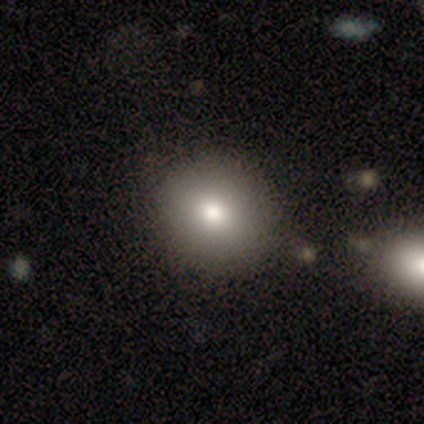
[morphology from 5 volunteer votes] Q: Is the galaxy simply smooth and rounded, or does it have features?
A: smooth — 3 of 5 (60%).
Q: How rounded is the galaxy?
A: round — 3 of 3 (100%).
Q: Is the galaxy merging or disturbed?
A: none — 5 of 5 (100%).